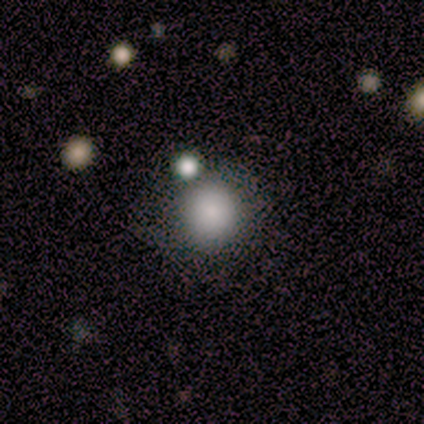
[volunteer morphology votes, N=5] This is clearly a smooth galaxy (80%). How rounded: clearly round (100%). Merging: likely none (75%).